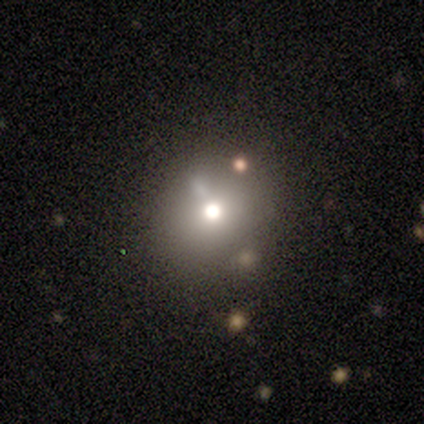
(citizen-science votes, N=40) A smooth galaxy with no disk features (48%) that is round (84%). Merging: none (69%).